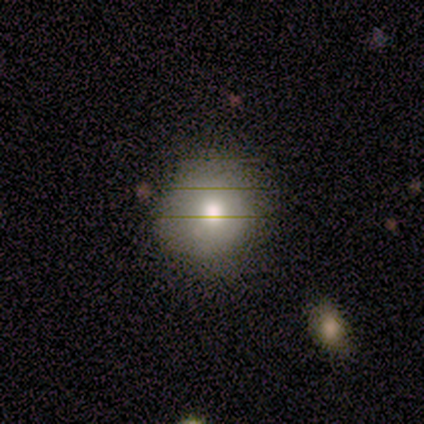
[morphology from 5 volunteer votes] smooth-or-featured: smooth: 80% | star or artifact: 20% | featured or disk: 0%
  how-rounded: round: 75% | in between: 25% | cigar-shaped: 0%
  merging: none: 100% | minor disturbance: 0% | major disturbance: 0% | merger: 0%